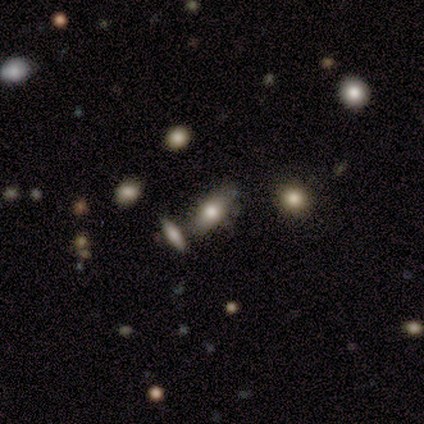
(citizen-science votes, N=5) Q: Smooth or featured?
A: smooth (40%); tied with: featured or disk (40%)
Q: How rounded?
A: in between (100%)
Q: Merging?
A: none (100%)